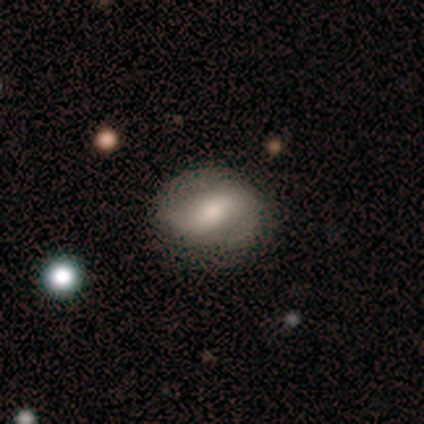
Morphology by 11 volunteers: featured or disk 64%, smooth 36%, star or artifact 0%. Down the decision tree: edge-on disk — no (86%); bar — weak (50%); spiral arms — yes (67%); spiral arm count — 2 (100%); spiral winding — tight (50%); bulge size — moderate (67%); merging — none (73%).